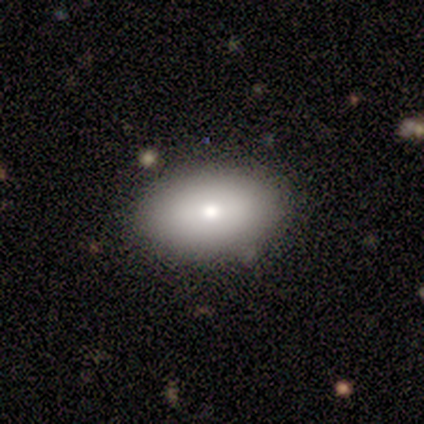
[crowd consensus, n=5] Smooth or featured? 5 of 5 (100%) said smooth. How rounded? 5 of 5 (100%) said in between. Merging? 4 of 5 (80%) said none.